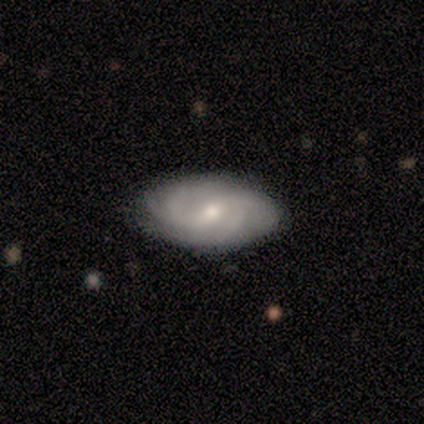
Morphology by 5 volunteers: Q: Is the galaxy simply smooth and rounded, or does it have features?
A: featured or disk — 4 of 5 (80%).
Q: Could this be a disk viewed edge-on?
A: no — 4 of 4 (100%).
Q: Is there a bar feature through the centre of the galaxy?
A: no — 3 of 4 (75%).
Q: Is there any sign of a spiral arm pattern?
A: yes — 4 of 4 (100%).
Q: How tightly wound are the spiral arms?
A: tight — 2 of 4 (50%).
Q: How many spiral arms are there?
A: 2 — 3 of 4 (75%).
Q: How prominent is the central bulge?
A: small — 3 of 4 (75%).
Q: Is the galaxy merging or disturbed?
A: none — 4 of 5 (80%).